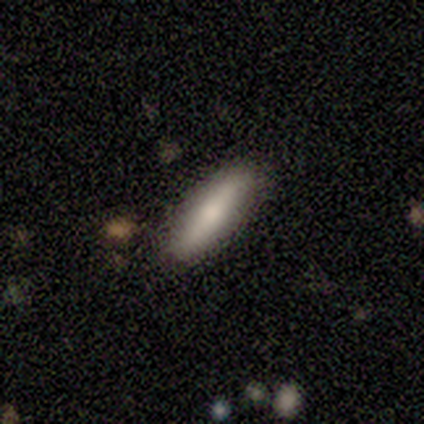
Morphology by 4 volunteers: A smooth galaxy with no disk features (100%) that is cigar-shaped (75%).

Vote fractions:
- Smooth or featured? smooth: 100% / featured or disk: 0% / star or artifact: 0%
- How rounded? cigar-shaped: 75% / in between: 25% / round: 0%
- Merging? none: 100% / minor disturbance: 0% / major disturbance: 0% / merger: 0%